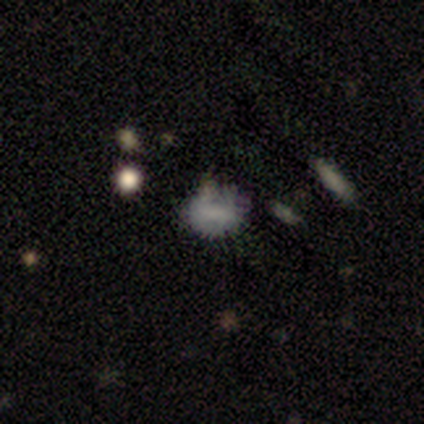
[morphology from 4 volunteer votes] A smooth galaxy with no disk features (50%) that is round (50%, tied with in between).

Vote fractions:
- Smooth or featured? smooth: 50% / featured or disk: 25% / star or artifact: 25%
- How rounded? round: 50% (tied) / in between: 50% (tied) / cigar-shaped: 0%
- Merging? none: 33% (tied) / minor disturbance: 33% (tied) / major disturbance: 33% (tied) / merger: 0%